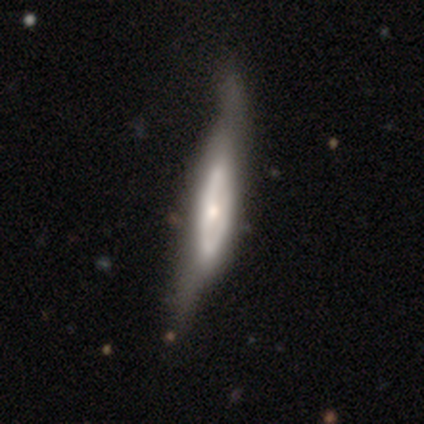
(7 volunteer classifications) A featured or disk galaxy (71%) with no bar (67%), 2 (50%, tied with can't tell) tight (50%, tied with medium) spiral arms (67%) and a large central bulge (33%, tied with moderate and small). Merging: none (57%).